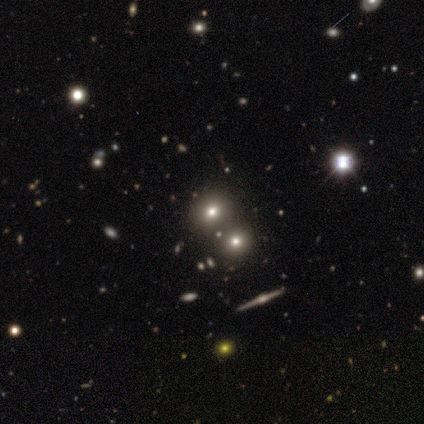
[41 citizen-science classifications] Morphology: type=smooth (59%); roundness=round (79%); merging=none (68%).